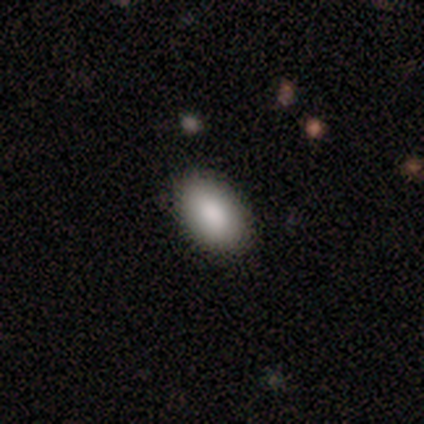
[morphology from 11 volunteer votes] This appears to be a smooth galaxy with no disk features (100%) that is in between round and cigar-shaped (91%). Merging: none (64%).